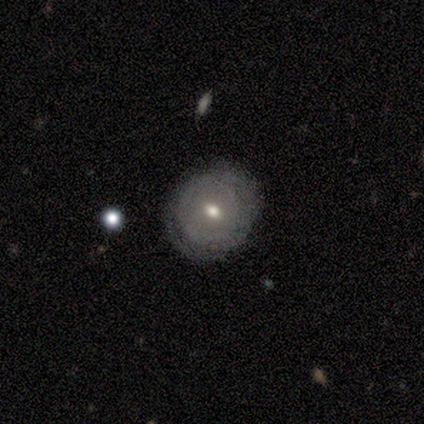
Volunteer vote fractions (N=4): Q: Smooth or featured?
A: featured or disk (75%); runner-up: smooth (25%)
Q: Edge-on disk?
A: no (67%); runner-up: yes (33%)
Q: Bar?
A: no (100%)
Q: Spiral arms?
A: yes (100%)
Q: Spiral winding?
A: tight (100%)
Q: Spiral arm count?
A: 2 (50%); tied with: can't tell (50%)
Q: Bulge size?
A: moderate (50%); tied with: small (50%)
Q: Merging?
A: none (50%); runner-up: minor disturbance (25%)